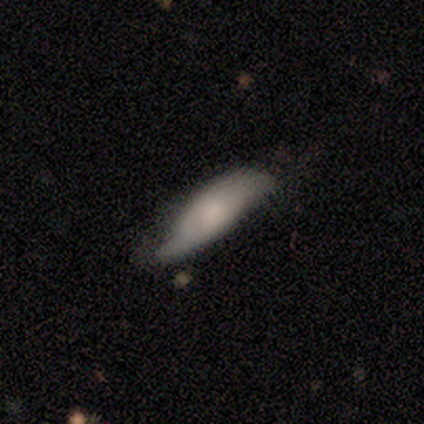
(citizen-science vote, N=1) featured or disk 100%, smooth 0%, star or artifact 0%. Down the decision tree: edge-on disk — no (100%); bar — no (100%); spiral arms — yes (100%); spiral arm count — 2 (100%); spiral winding — tight (100%); bulge size — large (100%); merging — none (100%).